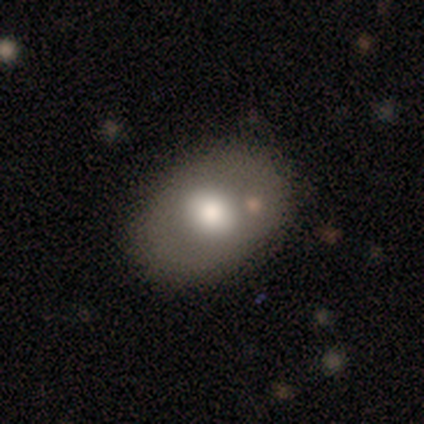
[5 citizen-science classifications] smooth-or-featured: smooth: 80% | featured or disk: 20% | star or artifact: 0%
  how-rounded: round: 50% (tied) | in between: 50% (tied) | cigar-shaped: 0%
  merging: none: 60% | minor disturbance: 40% | major disturbance: 0% | merger: 0%